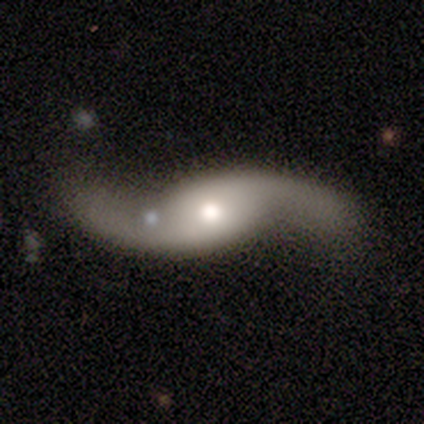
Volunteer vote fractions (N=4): Smooth or featured?
  - featured or disk: 100% *
  - smooth: 0%
  - star or artifact: 0%
Edge-on disk?
  - no: 100% *
  - yes: 0%
Bar?
  - no: 75% *
  - strong: 25%
  - weak: 0%
Spiral arms?
  - yes: 100% *
  - no: 0%
Spiral winding?
  - loose: 100% *
  - tight: 0%
  - medium: 0%
Spiral arm count?
  - 2: 100% *
  - 1: 0%
  - 3: 0%
  - 4: 0%
  - more than 4: 0%
  - can't tell: 0%
Bulge size?
  - moderate: 100% *
  - dominant: 0%
  - large: 0%
  - small: 0%
  - none: 0%
Merging?
  - none: 75% *
  - major disturbance: 25%
  - minor disturbance: 0%
  - merger: 0%